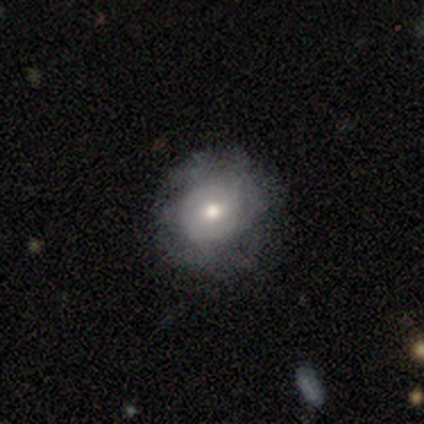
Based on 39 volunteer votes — Smooth or featured? featured or disk (69%)
Edge-on disk? no (96%)
Bar? no (58%)
Spiral arms? yes (62%)
Spiral winding? tight (56%)
Spiral arm count? can't tell (50%)
Bulge size? moderate (62%)
Merging? none (68%)